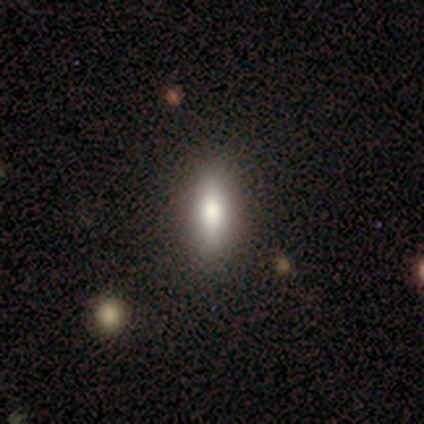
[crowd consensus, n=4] Volunteers were most divided on "how rounded": cigar-shaped: 75%, in between: 25%, round: 0%. More confident: smooth or featured — smooth (100%); merging — none (100%).